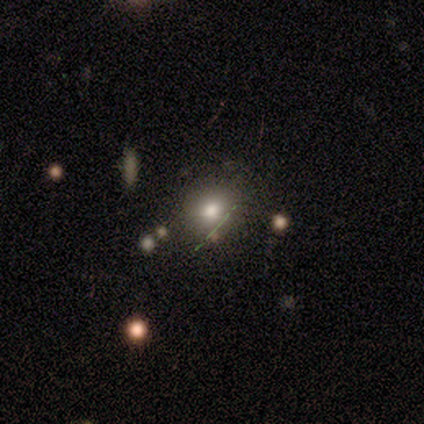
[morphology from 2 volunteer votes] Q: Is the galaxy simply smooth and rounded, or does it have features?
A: smooth — 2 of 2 (100%).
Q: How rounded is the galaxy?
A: round — 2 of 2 (100%).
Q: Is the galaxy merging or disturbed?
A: none — 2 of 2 (100%).